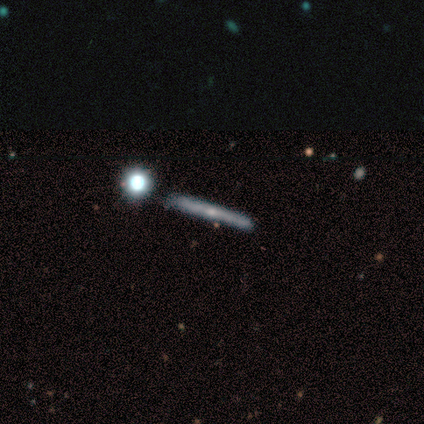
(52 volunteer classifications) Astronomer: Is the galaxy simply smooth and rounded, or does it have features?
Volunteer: featured or disk — 60%.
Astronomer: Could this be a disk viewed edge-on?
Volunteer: yes — 97%.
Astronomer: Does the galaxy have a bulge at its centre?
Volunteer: none — 77%.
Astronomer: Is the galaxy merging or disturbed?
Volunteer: none — 80%.